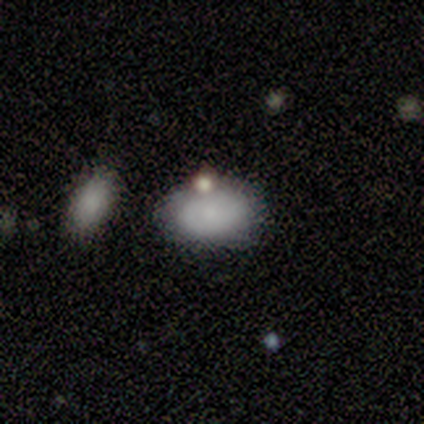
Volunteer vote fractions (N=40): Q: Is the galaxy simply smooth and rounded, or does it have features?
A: smooth — 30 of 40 (75%).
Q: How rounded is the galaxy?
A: in between — 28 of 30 (93%).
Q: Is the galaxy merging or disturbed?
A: none — 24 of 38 (63%).